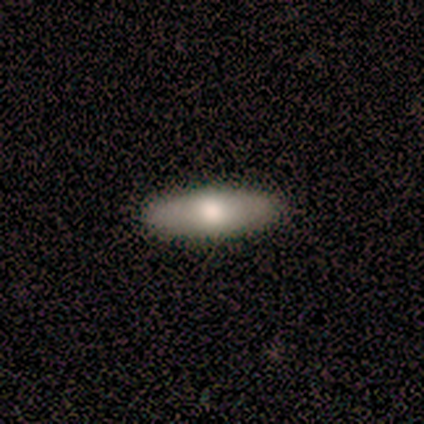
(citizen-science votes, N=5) Smooth or featured? featured or disk (60%)
Edge-on disk? yes (67%)
Edge-on bulge? rounded (100%)
Merging? none (100%)